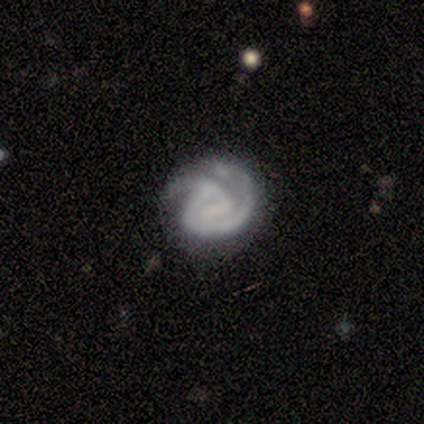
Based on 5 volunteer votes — A featured or disk galaxy (60%) with a strong bar (33%, tied with weak and no), 1 (67%) tight (67%) spiral arms (100%) and no central bulge (100%).

Vote fractions:
- Smooth or featured? featured or disk: 60% / smooth: 40% / star or artifact: 0%
- Edge-on disk? no: 100% / yes: 0%
- Bar? strong: 33% (tied) / weak: 33% (tied) / no: 33% (tied)
- Spiral arms? yes: 100% / no: 0%
- Spiral winding? tight: 67% / medium: 33% / loose: 0%
- Spiral arm count? 1: 67% / 3: 33% / 2: 0% / 4: 0% / more than 4: 0% / can't tell: 0%
- Bulge size? none: 100% / dominant: 0% / large: 0% / moderate: 0% / small: 0%
- Merging? none: 80% / major disturbance: 20% / minor disturbance: 0% / merger: 0%